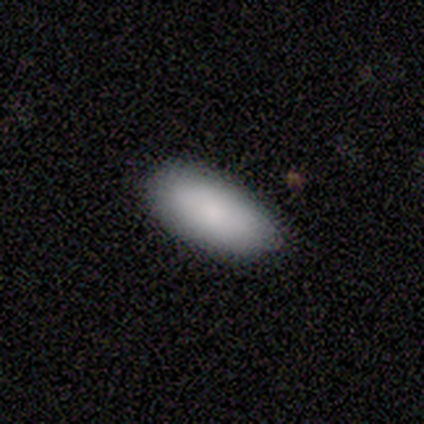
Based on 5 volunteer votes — Smooth or featured? smooth (100%)
How rounded? in between (100%)
Merging? none (80%)